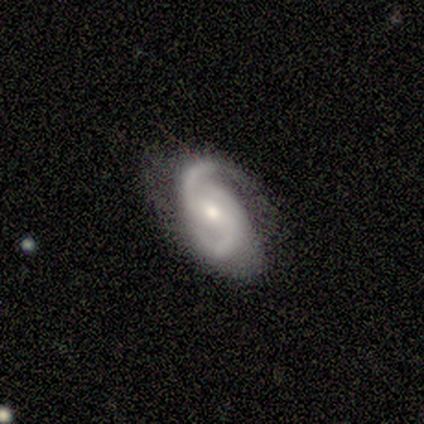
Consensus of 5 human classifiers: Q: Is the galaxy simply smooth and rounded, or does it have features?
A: featured or disk — 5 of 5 (100%).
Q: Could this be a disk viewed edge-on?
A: no — 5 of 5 (100%).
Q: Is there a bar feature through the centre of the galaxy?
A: strong — 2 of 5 (40%, tied with no).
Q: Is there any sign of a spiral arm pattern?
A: yes — 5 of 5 (100%).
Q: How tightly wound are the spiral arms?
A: loose — 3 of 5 (60%).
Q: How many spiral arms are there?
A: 2 — 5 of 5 (100%).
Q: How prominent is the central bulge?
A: moderate — 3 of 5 (60%).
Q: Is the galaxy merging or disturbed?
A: none — 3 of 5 (60%).